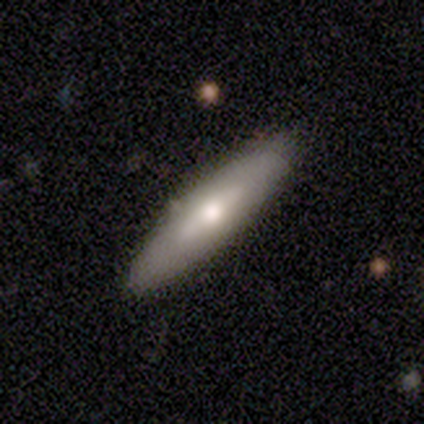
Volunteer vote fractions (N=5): Overall: featured or disk (80%). Edge-on disk: yes (50%, tied with no). Edge-on bulge: boxy (50%, tied with rounded). Merging: none (100%).